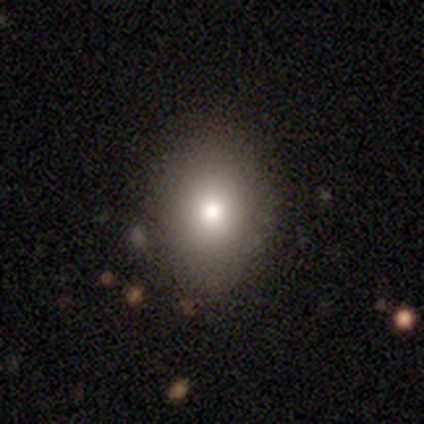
Volunteers were most divided on "merging" (2-way tie): none: 50%, minor disturbance: 50%, major disturbance: 0%, merger: 0%. More confident: smooth or featured — smooth (80%); how rounded — in between (75%).